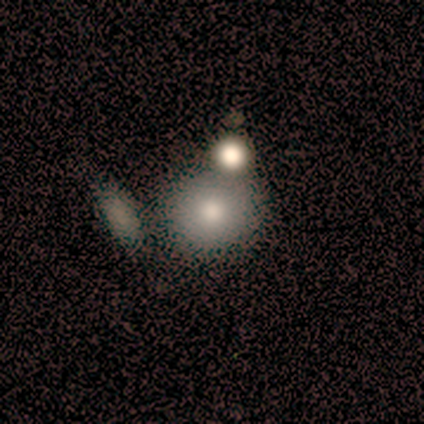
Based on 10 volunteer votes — smooth-or-featured: smooth: 60% | star or artifact: 30% | featured or disk: 10%
  how-rounded: round: 100% | in between: 0% | cigar-shaped: 0%
  merging: none: 71% | merger: 29% | minor disturbance: 0% | major disturbance: 0%